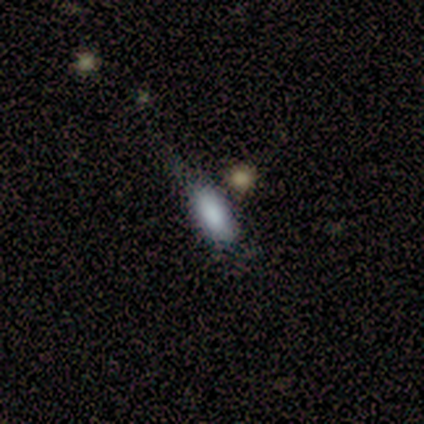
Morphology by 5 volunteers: type=smooth (100%); roundness=in between (100%); merging=none (80%).